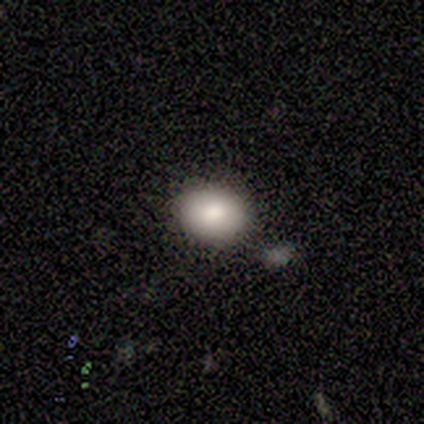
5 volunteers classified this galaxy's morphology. A smooth galaxy with no disk features (80%) that is round (50%, tied with in between).

Vote fractions:
- Smooth or featured? smooth: 80% / featured or disk: 20% / star or artifact: 0%
- How rounded? round: 50% (tied) / in between: 50% (tied) / cigar-shaped: 0%
- Merging? none: 80% / merger: 20% / minor disturbance: 0% / major disturbance: 0%